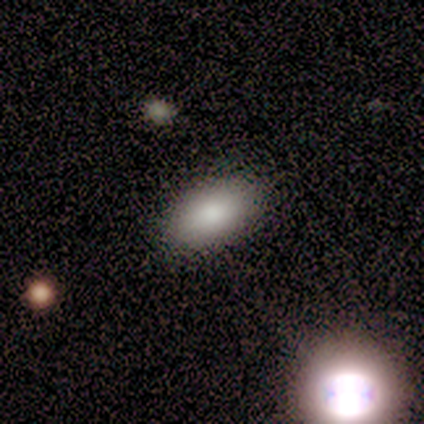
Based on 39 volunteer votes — smooth 90%, featured or disk 8%, star or artifact 3%. Down the decision tree: how rounded — in between (97%); merging — none (87%).